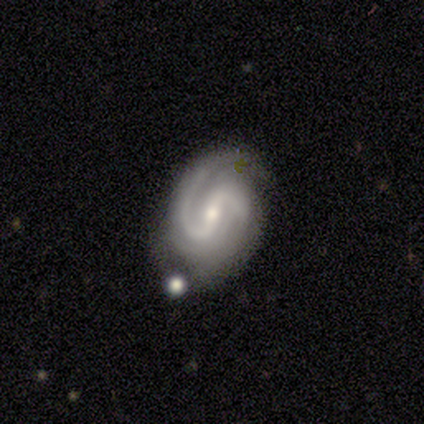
Smooth or featured: featured or disk — 100%
Edge-on disk: no — 100%
Bar: strong — 60% (no — 40%)
Spiral arms: yes — 100%
Spiral winding: tight — 40% (tied with medium — 40%)
Spiral arm count: 2 — 80% (4 — 20%)
Bulge size: moderate — 60% (small — 40%)
Merging: none — 40% (tied with major disturbance — 40%)